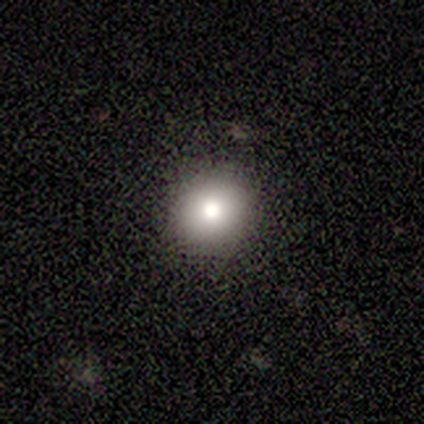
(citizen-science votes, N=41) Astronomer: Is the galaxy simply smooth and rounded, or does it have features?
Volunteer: smooth — 85%.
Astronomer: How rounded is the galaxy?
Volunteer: round — 86%.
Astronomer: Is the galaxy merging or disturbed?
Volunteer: none — 95%.